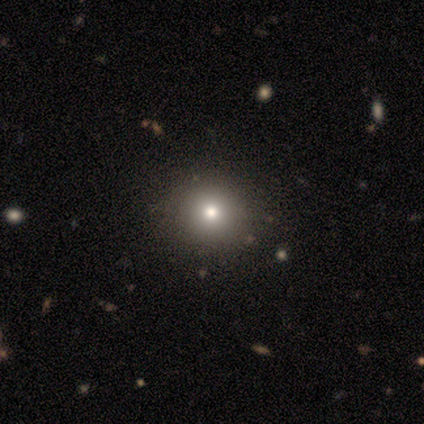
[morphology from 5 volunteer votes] Q: Smooth or featured?
A: smooth (60%); runner-up: star or artifact (40%)
Q: How rounded?
A: round (67%); runner-up: in between (33%)
Q: Merging?
A: none (100%)